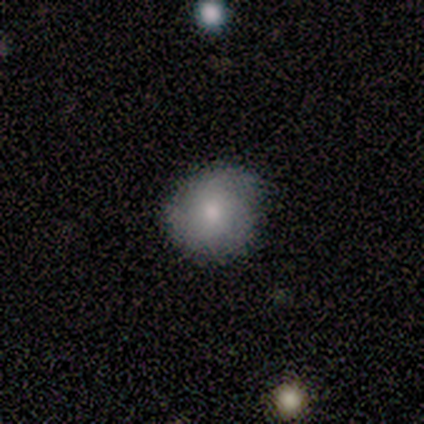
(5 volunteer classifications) This appears to be a smooth galaxy with no disk features (80%) that is round (100%). Merging: none (100%).